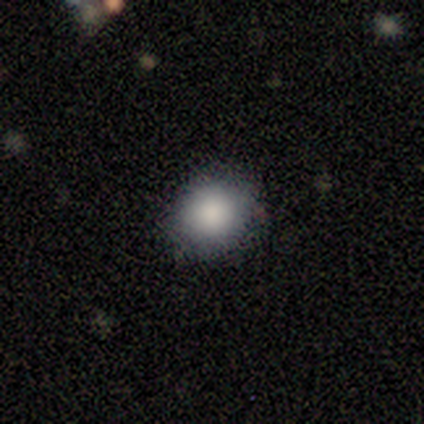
Smooth or featured?
  - smooth: 86% *
  - star or artifact: 10%
  - featured or disk: 5%
How rounded?
  - round: 89% *
  - in between: 11%
  - cigar-shaped: 0%
Merging?
  - none: 89% *
  - minor disturbance: 5%
  - major disturbance: 5%
  - merger: 0%